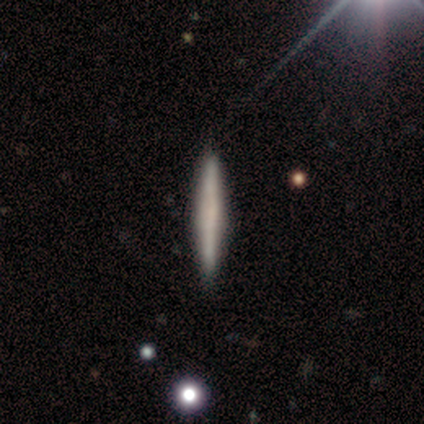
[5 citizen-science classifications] smooth_or_featured: smooth (p=0.80) [alt: star or artifact p=0.20]
how_rounded: cigar-shaped (p=1.00)
merging: none (p=0.75) [alt: minor disturbance p=0.25]